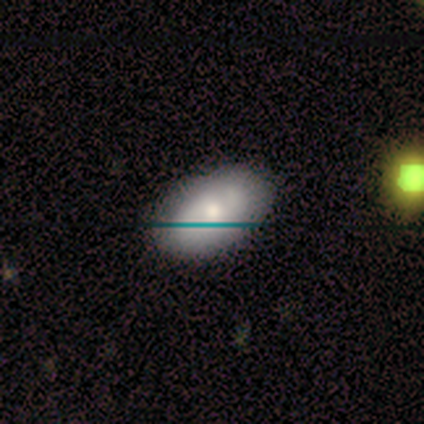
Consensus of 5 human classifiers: Q: Smooth or featured?
A: smooth (80%); runner-up: star or artifact (20%)
Q: How rounded?
A: in between (100%)
Q: Merging?
A: none (100%)